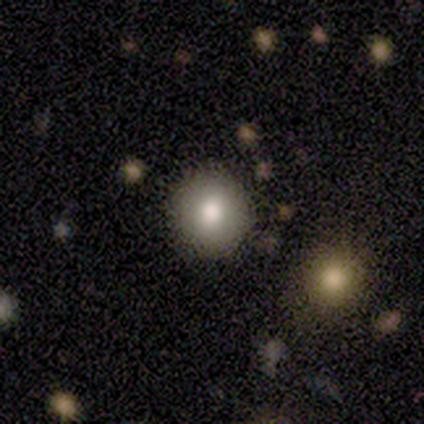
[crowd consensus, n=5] A smooth galaxy with no disk features (100%) that is round (100%).

Vote fractions:
- Smooth or featured? smooth: 100% / featured or disk: 0% / star or artifact: 0%
- How rounded? round: 100% / in between: 0% / cigar-shaped: 0%
- Merging? none: 60% / minor disturbance: 40% / major disturbance: 0% / merger: 0%